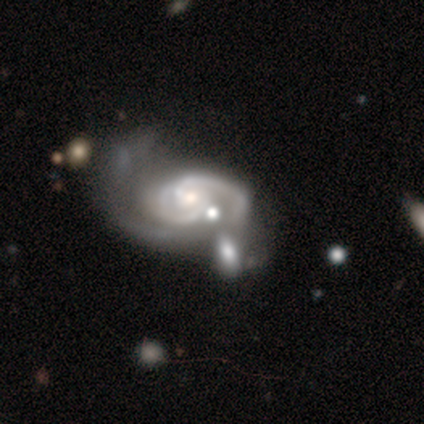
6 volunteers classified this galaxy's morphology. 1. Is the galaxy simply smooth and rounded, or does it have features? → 100% featured or disk, 0% smooth, 0% star or artifact.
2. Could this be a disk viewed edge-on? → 100% no, 0% yes.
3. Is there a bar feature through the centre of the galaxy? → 83% no, 17% weak, 0% strong.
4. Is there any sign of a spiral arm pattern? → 100% yes, 0% no.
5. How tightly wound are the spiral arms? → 83% medium, 17% tight, 0% loose.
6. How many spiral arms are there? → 67% 2, 17% 1, 17% 3, 0% 4, 0% more than 4, 0% can't tell.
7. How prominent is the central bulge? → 83% moderate, 17% small, 0% dominant, 0% large, 0% none.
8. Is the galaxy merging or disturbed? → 50% merger, 33% none, 17% major disturbance, 0% minor disturbance.